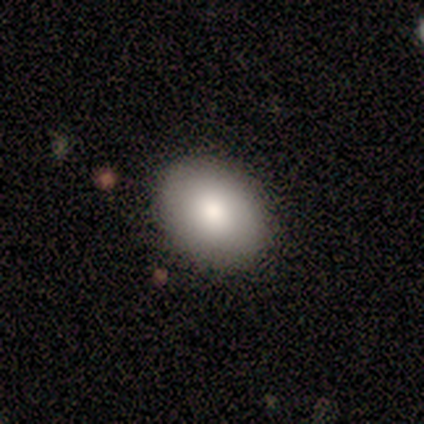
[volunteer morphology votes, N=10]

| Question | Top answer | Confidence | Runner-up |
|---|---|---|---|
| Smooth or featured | smooth | 90% | star or artifact (10%) |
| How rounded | in between | 78% | round (22%) |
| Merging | none | 89% | minor disturbance (11%) |